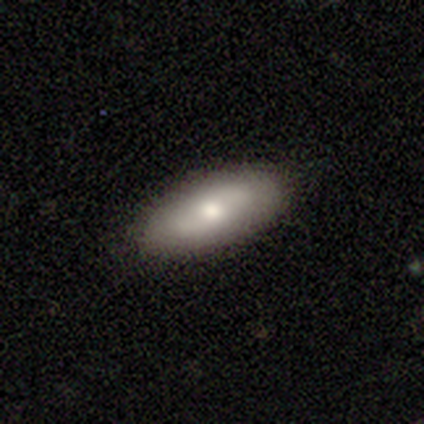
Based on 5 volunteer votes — Q: Smooth or featured?
A: featured or disk (60%); runner-up: smooth (40%)
Q: Edge-on disk?
A: no (100%)
Q: Bar?
A: weak (67%); runner-up: no (33%)
Q: Spiral arms?
A: no (67%); runner-up: yes (33%)
Q: Bulge size?
A: moderate (100%)
Q: Merging?
A: none (80%); runner-up: minor disturbance (20%)